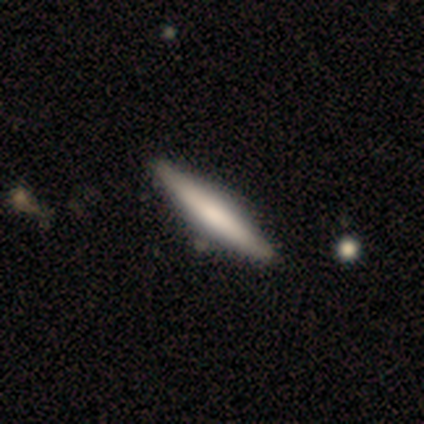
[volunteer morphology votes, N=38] Overall: smooth (55%; featured or disk 45%). How rounded: cigar-shaped (95%). Merging: none (63%).